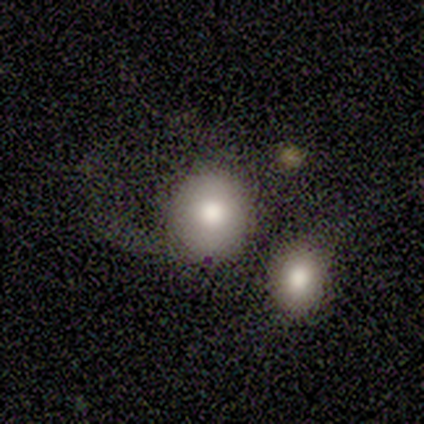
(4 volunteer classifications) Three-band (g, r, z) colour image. It shows a smooth galaxy with no disk features (75%) that is round (100%). Merging: major disturbance (50%).